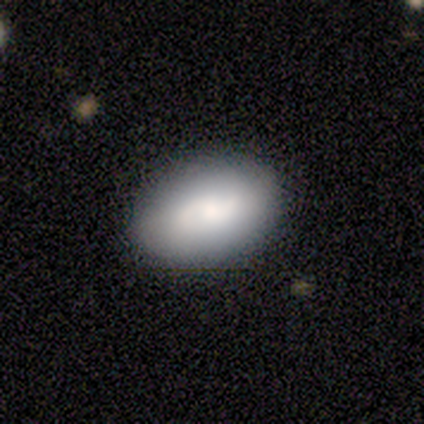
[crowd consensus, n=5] Smooth or featured? smooth (60%)
How rounded? in between (67%)
Merging? none (75%)